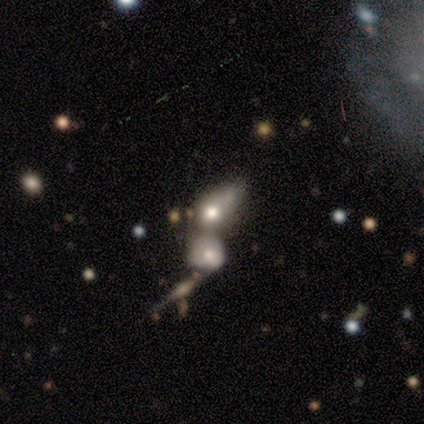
smooth-or-featured: smooth: 46% | featured or disk: 35% | star or artifact: 19%
  how-rounded: in between: 71% | round: 29% | cigar-shaped: 0%
  merging: merger: 73% | major disturbance: 3% | none: 0% | minor disturbance: 0%